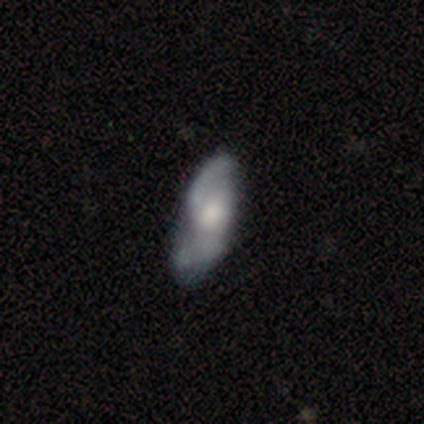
smooth_or_featured: featured or disk (p=0.62) [alt: smooth p=0.33]
disk_edge_on: no (p=0.96) [alt: yes p=0.04]
bar: no (p=0.77) [alt: weak p=0.21]
has_spiral_arms: yes (p=0.86) [alt: no p=0.14]
spiral_winding: medium (p=0.46) [alt: loose p=0.41]
spiral_arm_count: 2 (p=0.92) [alt: can't tell p=0.05]
bulge_size: moderate (p=0.47) [alt: large p=0.26]
merging: none (p=0.51) [alt: minor disturbance p=0.35]